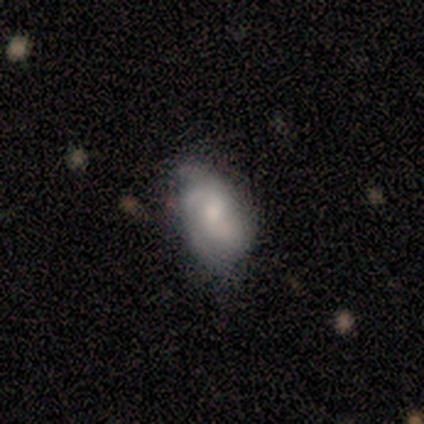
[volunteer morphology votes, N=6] smooth-or-featured: featured or disk: 83% | star or artifact: 17% | smooth: 0%
  disk-edge-on: no: 100% | yes: 0%
    bar: no: 60% | weak: 40% | strong: 0%
    has-spiral-arms: yes: 100% | no: 0%
      spiral-winding: tight: 40% (tied) | medium: 40% (tied) | loose: 20%
      spiral-arm-count: can't tell: 60% | 1: 20% | 3: 20% | 2: 0% | 4: 0% | more than 4: 0%
    bulge-size: small: 40% (tied) | none: 40% (tied) | moderate: 20% | dominant: 0% | large: 0%
  merging: none: 40% (tied) | minor disturbance: 40% (tied) | merger: 20% | major disturbance: 0%